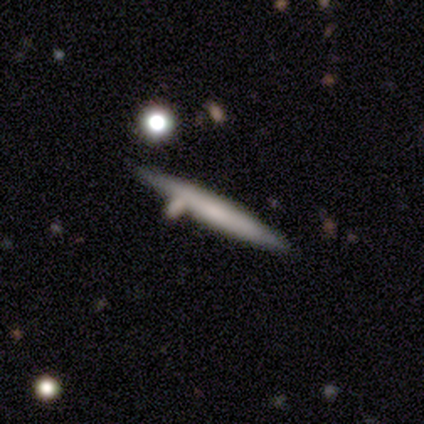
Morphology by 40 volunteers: This is likely a featured or disk galaxy (62%). It is clearly viewed edge-on (84%). Edge-on bulge: clearly none (86%). Merging: likely none (72%).